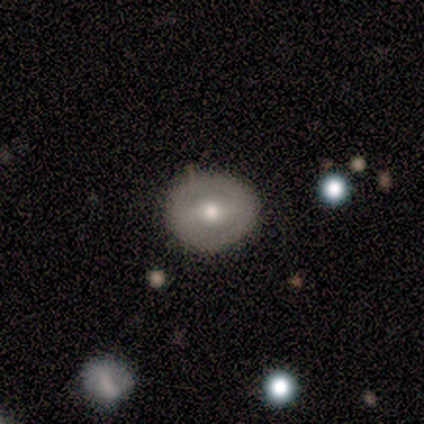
Smooth or featured: smooth — 40% (tied with featured or disk — 40%)
How rounded: round — 50% (tied with in between — 50%)
Merging: none — 100%